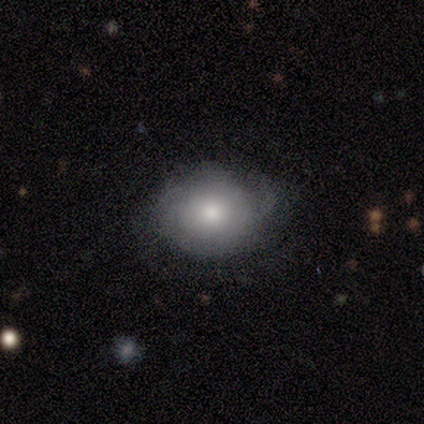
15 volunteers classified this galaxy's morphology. Smooth or featured?
  - smooth: 60% *
  - featured or disk: 27%
  - star or artifact: 13%
How rounded?
  - in between: 67% *
  - round: 33%
  - cigar-shaped: 0%
Merging?
  - none: 54% *
  - minor disturbance: 38%
  - major disturbance: 8%
  - merger: 0%